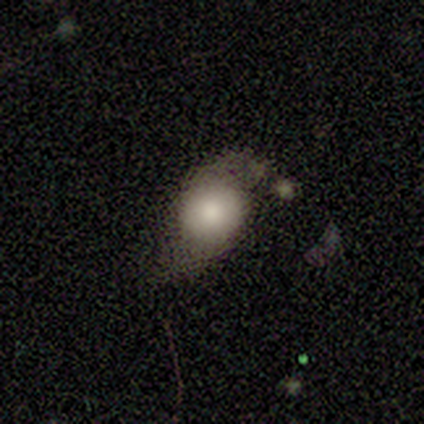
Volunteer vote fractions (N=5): Smooth or featured: smooth — 60% (featured or disk — 40%)
How rounded: round — 67% (in between — 33%)
Merging: minor disturbance — 60% (none — 20%)